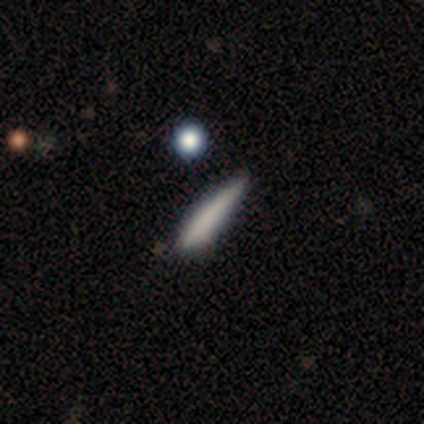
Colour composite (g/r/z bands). It shows a smooth galaxy with no disk features (60%) that is cigar-shaped (100%). Merging: none (60%).